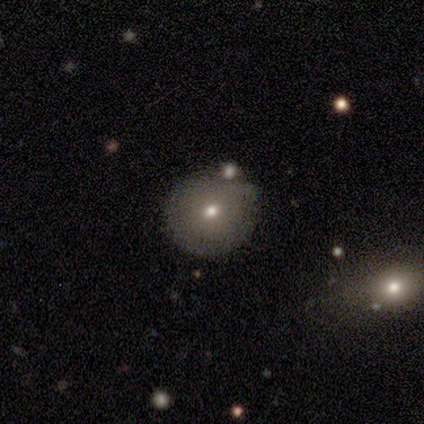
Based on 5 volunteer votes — A smooth galaxy with no disk features (80%) that is round (100%).

Vote fractions:
- Smooth or featured? smooth: 80% / star or artifact: 20% / featured or disk: 0%
- How rounded? round: 100% / in between: 0% / cigar-shaped: 0%
- Merging? none: 100% / minor disturbance: 0% / major disturbance: 0% / merger: 0%